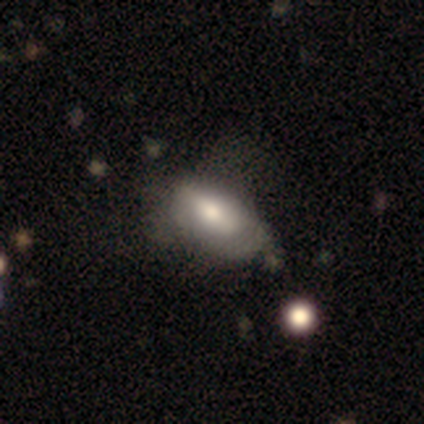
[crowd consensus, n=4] smooth_or_featured: smooth (p=0.75) [alt: featured or disk p=0.25]
how_rounded: in between (p=1.00)
merging: minor disturbance (p=0.75) [alt: none p=0.25]